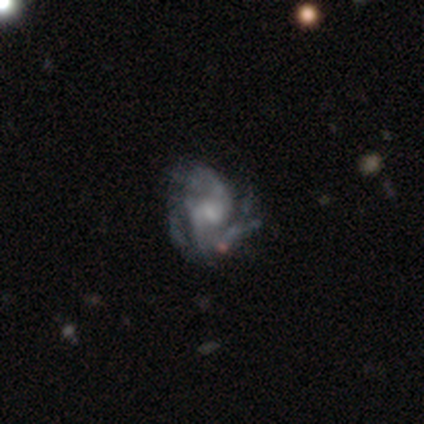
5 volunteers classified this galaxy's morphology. smooth_or_featured: featured or disk (p=0.60) [alt: star or artifact p=0.40]
disk_edge_on: no (p=1.00)
bar: weak (p=1.00)
has_spiral_arms: yes (p=1.00)
spiral_winding: medium (p=0.67) [alt: loose p=0.33]
spiral_arm_count: 3 (p=0.33) [tied with: 4 p=0.33, can't tell p=0.33]
bulge_size: small (p=0.67) [alt: moderate p=0.33]
merging: none (p=1.00)